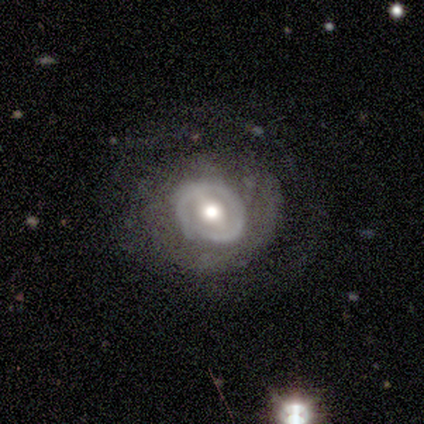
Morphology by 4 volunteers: type=featured or disk (100%); edge-on=no (100%); bar=no (100%); spiral arms=yes (50%, tied with no); winding=tight (50%, tied with loose); arm count=2 (50%, tied with can't tell); bulge=moderate (75%); merging=none (100%).